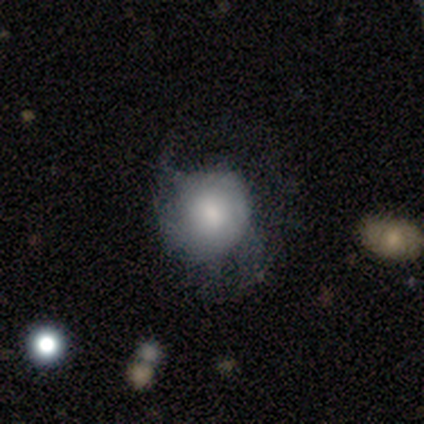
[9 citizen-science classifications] This is likely a smooth galaxy (67%). How rounded: clearly round (83%). Merging: marginally none (38%, tied with minor disturbance).